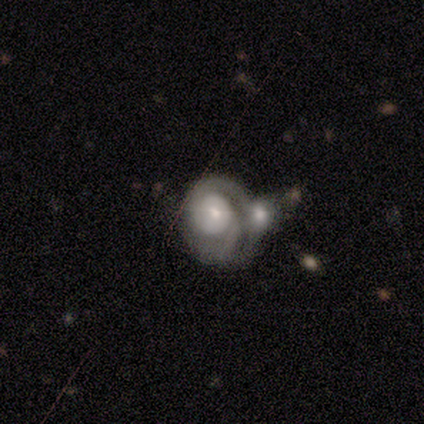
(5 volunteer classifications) featured or disk 80%, star or artifact 20%, smooth 0%. Down the decision tree: edge-on disk — no (100%); bar — no (100%); spiral arms — yes (75%); spiral arm count — 1 (67%); spiral winding — tight (67%); bulge size — small (75%); merging — merger (75%).